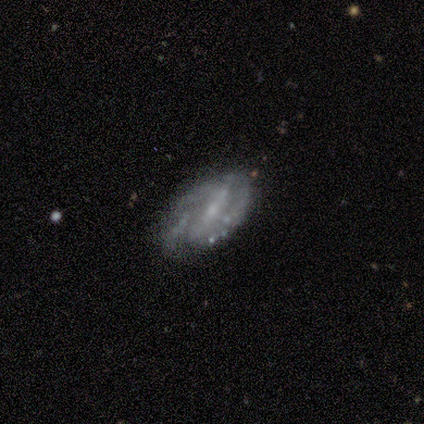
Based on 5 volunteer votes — smooth-or-featured: featured or disk: 80% | star or artifact: 20% | smooth: 0%
  disk-edge-on: no: 100% | yes: 0%
    bar: weak: 50% | strong: 25% | no: 25%
    has-spiral-arms: yes: 100% | no: 0%
      spiral-winding: medium: 100% | tight: 0% | loose: 0%
      spiral-arm-count: 2: 100% | 1: 0% | 3: 0% | 4: 0% | more than 4: 0% | can't tell: 0%
    bulge-size: moderate: 50% (tied) | small: 50% (tied) | dominant: 0% | large: 0% | none: 0%
  merging: major disturbance: 50% | none: 25% | minor disturbance: 25% | merger: 0%